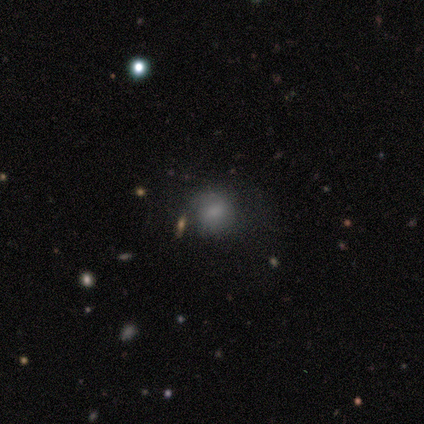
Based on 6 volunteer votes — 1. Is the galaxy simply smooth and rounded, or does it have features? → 83% smooth, 17% star or artifact, 0% featured or disk.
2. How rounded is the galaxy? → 80% round, 20% in between, 0% cigar-shaped.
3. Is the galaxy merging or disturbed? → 60% none, 40% minor disturbance, 0% major disturbance, 0% merger.